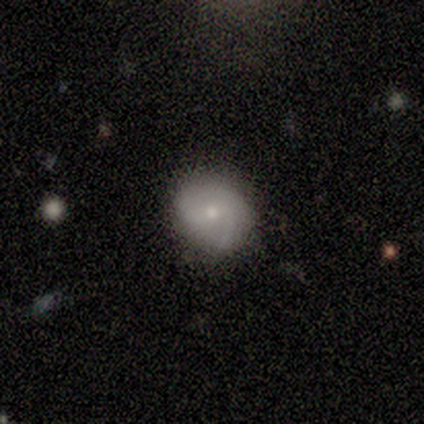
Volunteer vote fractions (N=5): A smooth galaxy with no disk features (60%) that is round (67%).

Vote fractions:
- Smooth or featured? smooth: 60% / featured or disk: 40% / star or artifact: 0%
- How rounded? round: 67% / in between: 33% / cigar-shaped: 0%
- Merging? none: 80% / minor disturbance: 20% / major disturbance: 0% / merger: 0%